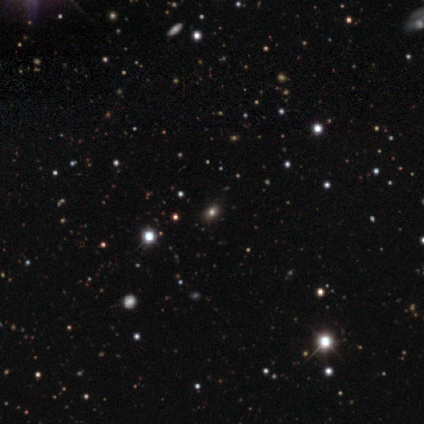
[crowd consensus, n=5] smooth_or_featured: smooth (p=0.60) [alt: featured or disk p=0.20]
how_rounded: in between (p=0.67) [alt: round p=0.33]
merging: none (p=1.00)